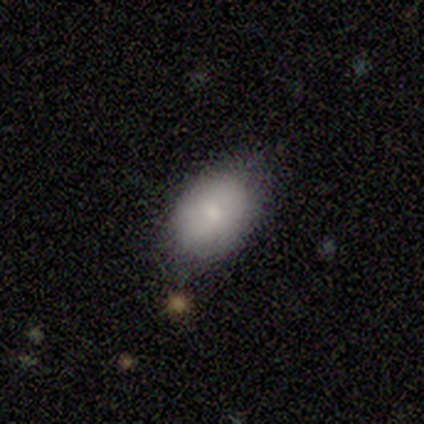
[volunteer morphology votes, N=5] Overall: smooth (80%). How rounded: in between (75%). Merging: none (75%).